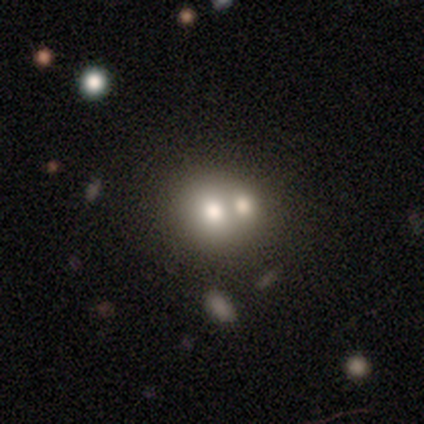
A smooth galaxy with no disk features (56%) that is round (68%). Merging: merger (62%).